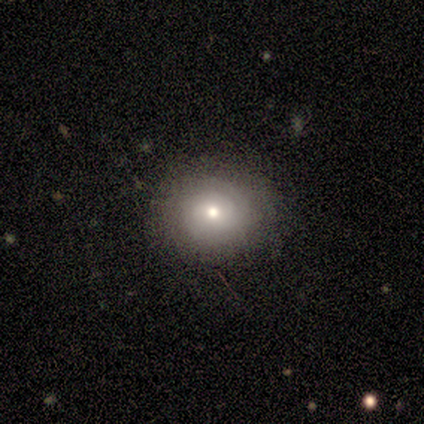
Morphology: type=smooth (60%); roundness=round (67%); merging=none (60%).